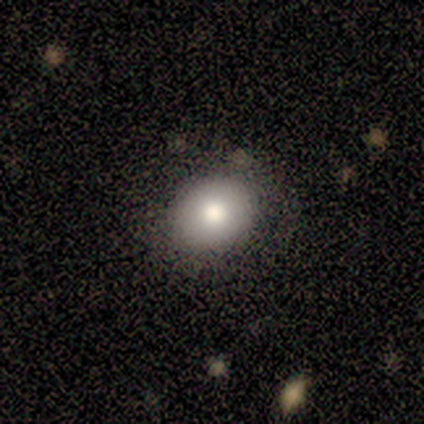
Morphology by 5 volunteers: type=smooth (100%); roundness=in between (80%); merging=none (80%).